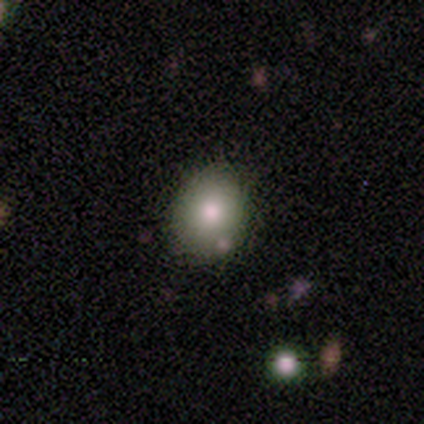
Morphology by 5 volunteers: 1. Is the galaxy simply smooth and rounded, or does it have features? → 80% smooth, 20% star or artifact, 0% featured or disk.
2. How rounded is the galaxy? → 50% round (tied), 50% in between (tied), 0% cigar-shaped.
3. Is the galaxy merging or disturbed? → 50% minor disturbance, 25% none, 25% major disturbance, 0% merger.